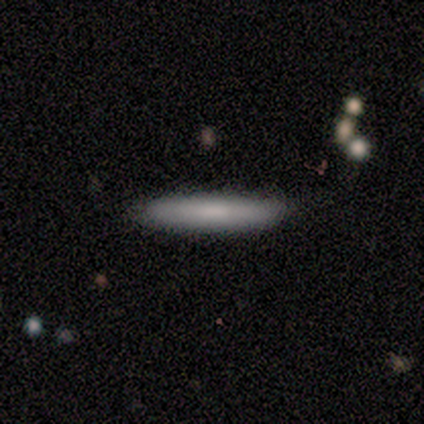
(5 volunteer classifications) Q: Smooth or featured?
A: smooth (80%); runner-up: featured or disk (20%)
Q: How rounded?
A: cigar-shaped (100%)
Q: Merging?
A: none (100%)